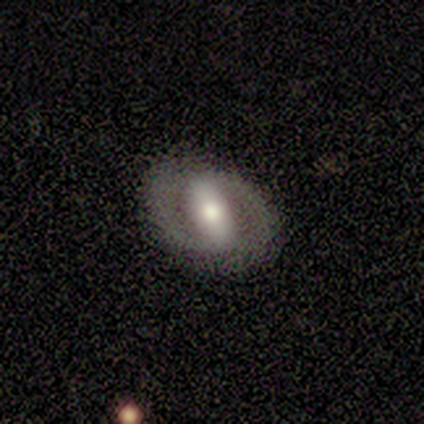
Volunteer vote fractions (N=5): Smooth or featured?
  - featured or disk: 80% *
  - smooth: 20%
  - star or artifact: 0%
Edge-on disk?
  - no: 100% *
  - yes: 0%
Bar?
  - strong: 100% *
  - weak: 0%
  - no: 0%
Spiral arms?
  - yes: 75% *
  - no: 25%
Spiral winding?
  - medium: 67% *
  - tight: 33%
  - loose: 0%
Spiral arm count?
  - 2: 100% *
  - 1: 0%
  - 3: 0%
  - 4: 0%
  - more than 4: 0%
  - can't tell: 0%
Bulge size?
  - moderate: 100% *
  - dominant: 0%
  - large: 0%
  - small: 0%
  - none: 0%
Merging?
  - none: 60% *
  - minor disturbance: 40%
  - major disturbance: 0%
  - merger: 0%